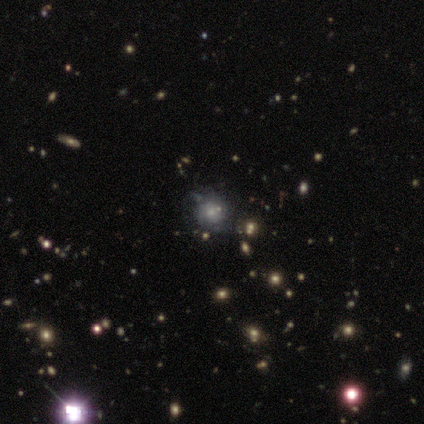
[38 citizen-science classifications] Smooth or featured?
  - smooth: 39% * (tied)
  - star or artifact: 39% * (tied)
  - featured or disk: 21%
How rounded?
  - round: 93% *
  - in between: 7%
  - cigar-shaped: 0%
Merging?
  - none: 78% *
  - minor disturbance: 17%
  - merger: 4%
  - major disturbance: 0%